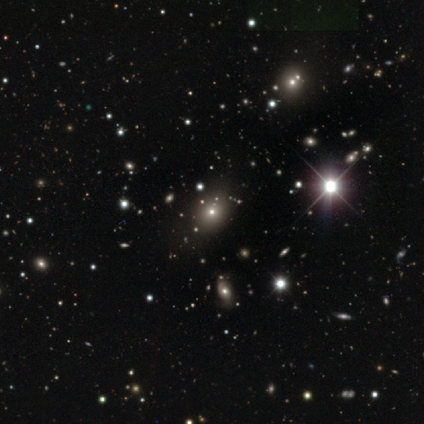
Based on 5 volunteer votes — Smooth or featured? featured or disk (40%, tied with star or artifact)
Edge-on disk? no (100%)
Bar? no (100%)
Spiral arms? no (100%)
Bulge size? moderate (50%, tied with small)
Merging? none (67%)